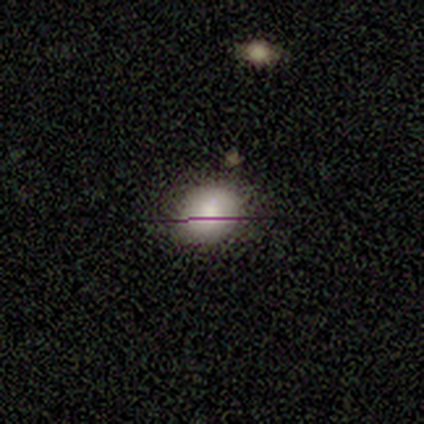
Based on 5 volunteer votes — smooth_or_featured: smooth (p=0.40) [tied with: featured or disk p=0.40]
how_rounded: round (p=1.00)
merging: none (p=0.50) [tied with: minor disturbance p=0.50]